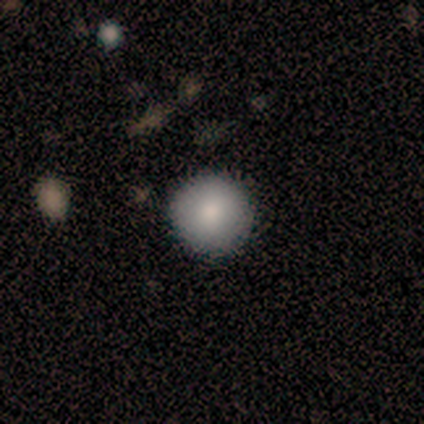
smooth 75%, star or artifact 25%, featured or disk 0%. Down the decision tree: how rounded — round (100%); merging — none (100%).